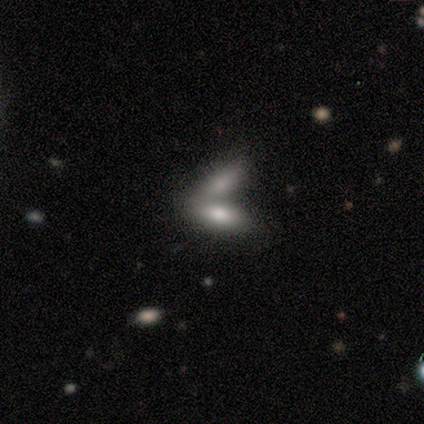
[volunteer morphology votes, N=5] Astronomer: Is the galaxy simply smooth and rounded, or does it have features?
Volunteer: smooth — 60%.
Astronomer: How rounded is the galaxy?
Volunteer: in between — 67%.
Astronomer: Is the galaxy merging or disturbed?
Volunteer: merger — 100%.